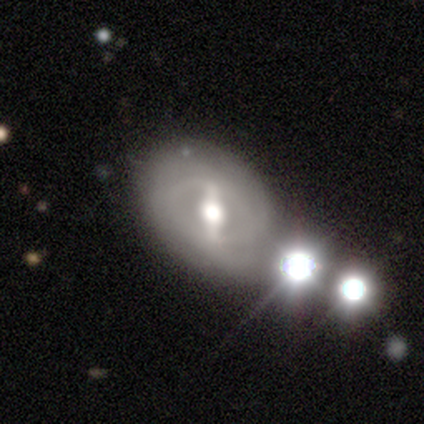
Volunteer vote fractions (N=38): Smooth or featured? featured or disk (82%)
Edge-on disk? no (100%)
Bar? strong (71%)
Spiral arms? yes (55%)
Spiral winding? tight (35%, tied with loose)
Spiral arm count? 2 (53%)
Bulge size? moderate (77%)
Merging? none (73%)